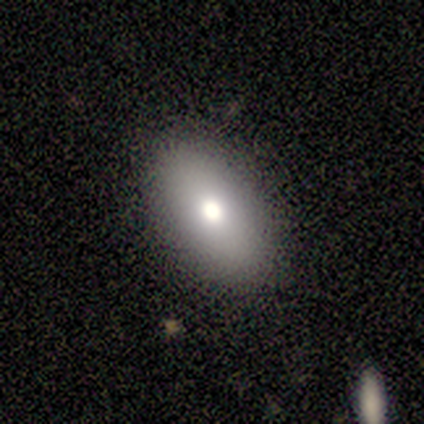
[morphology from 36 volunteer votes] A smooth galaxy with no disk features (75%) that is in between round and cigar-shaped (89%). Merging: none (85%).